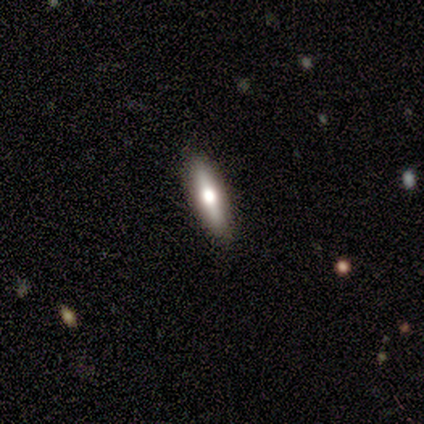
featured or disk 62%, smooth 38%, star or artifact 0%. Down the decision tree: edge-on disk — yes (75%); edge-on bulge — rounded (100%); merging — none (100%).